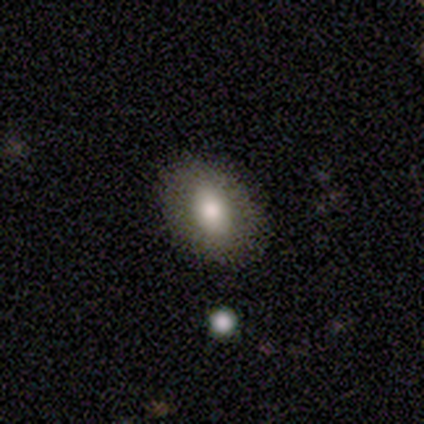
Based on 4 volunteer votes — A smooth galaxy with no disk features (50%, tied with star or artifact) that is round (50%, tied with in between). Merging: minor disturbance (100%).